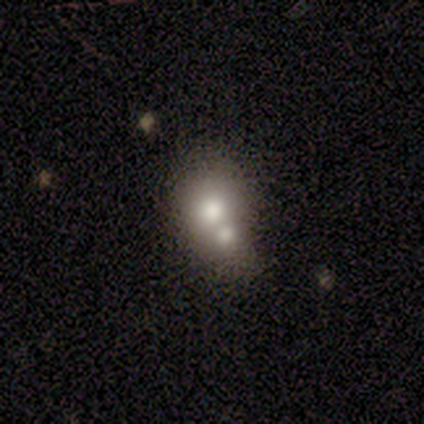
smooth_or_featured: smooth (p=0.62) [alt: featured or disk p=0.25]
how_rounded: round (p=1.00)
merging: merger (p=0.71) [alt: none p=0.29]